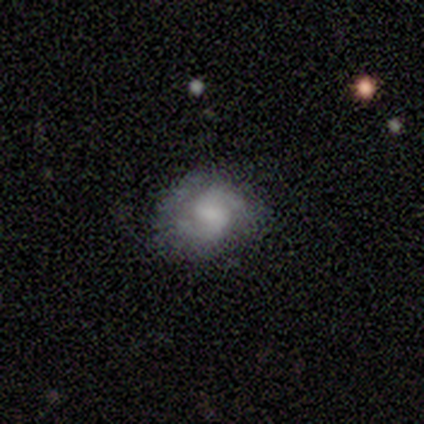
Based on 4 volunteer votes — Smooth or featured? featured or disk (50%)
Edge-on disk? no (100%)
Bar? weak (100%)
Spiral arms? yes (100%)
Spiral winding? tight (50%, tied with medium)
Spiral arm count? 2 (100%)
Bulge size? moderate (100%)
Merging? none (100%)